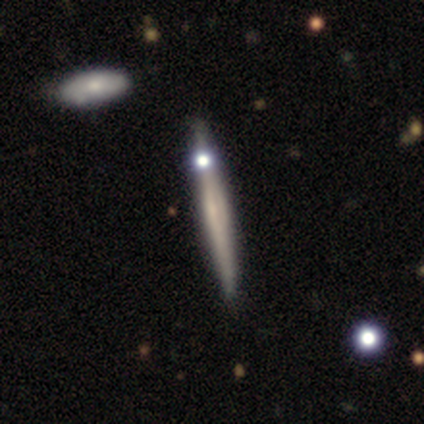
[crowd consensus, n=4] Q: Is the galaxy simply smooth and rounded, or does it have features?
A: smooth — 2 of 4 (50%, tied with featured or disk).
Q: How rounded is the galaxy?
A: cigar-shaped — 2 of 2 (100%).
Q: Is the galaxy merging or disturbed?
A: none — 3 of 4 (75%).